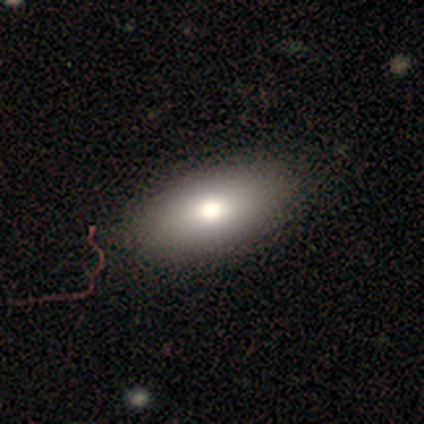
Volunteers were most divided on "smooth or featured": smooth: 67%, featured or disk: 33%, star or artifact: 0%. More confident: how rounded — in between (100%); merging — none (100%).